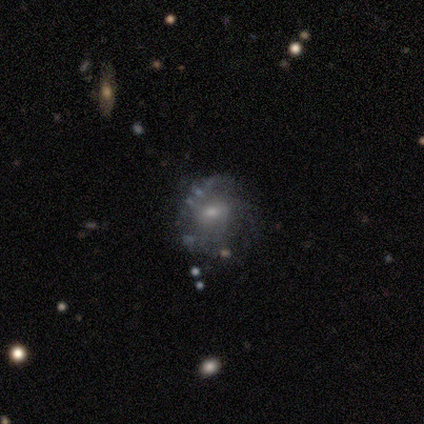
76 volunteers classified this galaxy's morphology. A featured or disk galaxy (76%) with no bar (61%), medium (48%) spiral arms (61%) and a small central bulge (56%).

Vote fractions:
- Smooth or featured? featured or disk: 76% / smooth: 17% / star or artifact: 7%
- Edge-on disk? no: 93% / yes: 7%
- Bar? no: 61% / weak: 37% / strong: 2%
- Spiral arms? yes: 61% / no: 39%
- Spiral winding? medium: 48% / tight: 27% / loose: 24%
- Spiral arm count? can't tell: 39% / 2: 36% / 3: 21% / 1: 3% / 4: 0% / more than 4: 0%
- Bulge size? small: 56% / moderate: 41% / large: 2% / none: 2% / dominant: 0%
- Merging? none: 30% / minor disturbance: 17% / major disturbance: 7% / merger: 3%